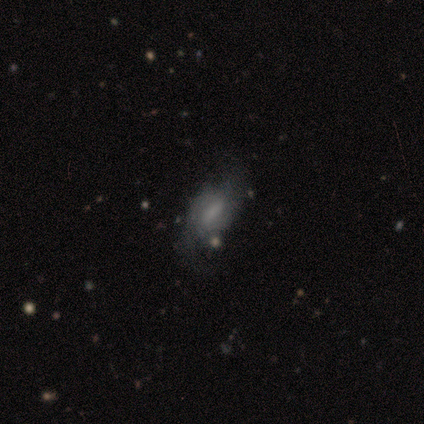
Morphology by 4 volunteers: smooth 75%, star or artifact 25%, featured or disk 0%. Down the decision tree: how rounded — in between (100%); merging — minor disturbance (67%).